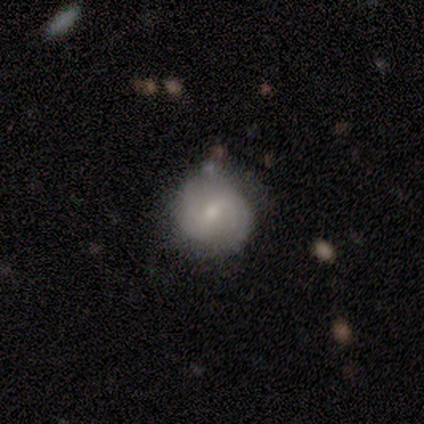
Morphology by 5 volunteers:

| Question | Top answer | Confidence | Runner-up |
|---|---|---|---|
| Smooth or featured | featured or disk | 60% | smooth (40%) |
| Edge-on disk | no | 100% | — |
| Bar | weak | 67% | no (33%) |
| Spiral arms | yes | 67% | no (33%) |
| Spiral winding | tight | 50% | tied: loose (50%) |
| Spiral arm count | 2 | 50% | tied: can't tell (50%) |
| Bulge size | small | 100% | — |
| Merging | none | 80% | major disturbance (20%) |